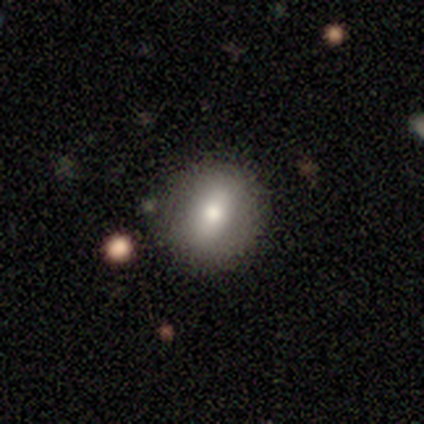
This appears to be a smooth galaxy with no disk features (75%) that is round (67%). Merging: none (100%).